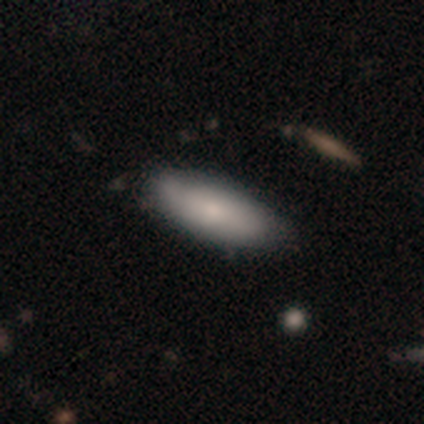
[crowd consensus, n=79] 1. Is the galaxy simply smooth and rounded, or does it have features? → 80% smooth, 16% featured or disk, 4% star or artifact.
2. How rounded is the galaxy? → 79% in between, 21% cigar-shaped, 0% round.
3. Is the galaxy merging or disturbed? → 37% none, 12% minor disturbance, 4% merger, 1% major disturbance.